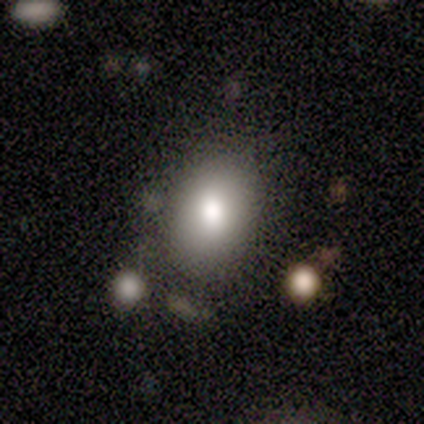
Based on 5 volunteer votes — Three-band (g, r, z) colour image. It shows a smooth galaxy with no disk features (60%) that is in between round and cigar-shaped (100%). Merging: none (100%).